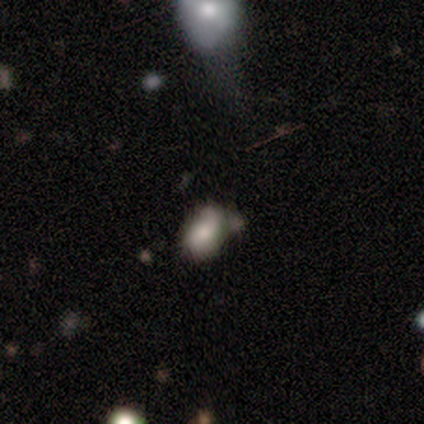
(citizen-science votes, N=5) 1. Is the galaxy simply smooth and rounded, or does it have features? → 80% smooth, 20% star or artifact, 0% featured or disk.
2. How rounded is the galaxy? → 75% in between, 25% round, 0% cigar-shaped.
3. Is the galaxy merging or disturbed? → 100% none, 0% minor disturbance, 0% major disturbance, 0% merger.